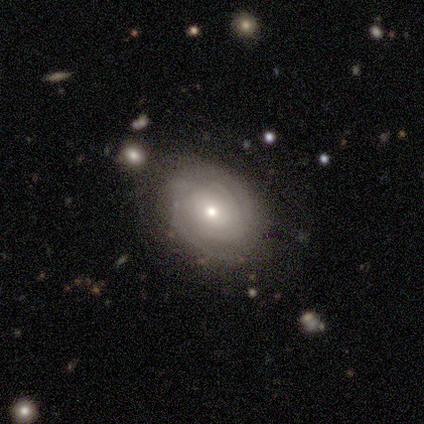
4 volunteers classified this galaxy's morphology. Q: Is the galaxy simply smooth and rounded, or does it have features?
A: featured or disk — 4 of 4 (100%).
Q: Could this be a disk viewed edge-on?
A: no — 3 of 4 (75%).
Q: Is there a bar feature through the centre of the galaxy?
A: no — 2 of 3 (67%).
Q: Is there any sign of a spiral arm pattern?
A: yes — 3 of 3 (100%).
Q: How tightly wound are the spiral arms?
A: tight — 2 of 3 (67%).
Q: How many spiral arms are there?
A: can't tell — 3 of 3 (100%).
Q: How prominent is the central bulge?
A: small — 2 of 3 (67%).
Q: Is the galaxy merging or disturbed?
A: none — 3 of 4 (75%).